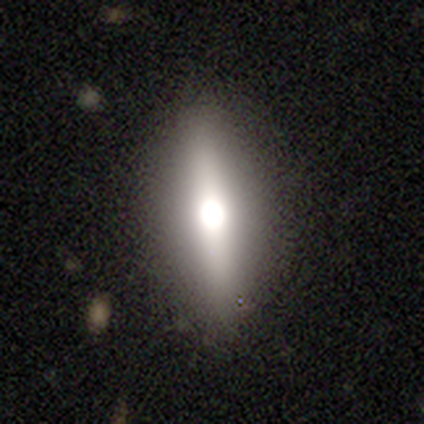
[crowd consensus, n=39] featured or disk 54%, smooth 44%, star or artifact 3%. Down the decision tree: edge-on disk — yes (86%); edge-on bulge — rounded (89%); merging — none (84%).